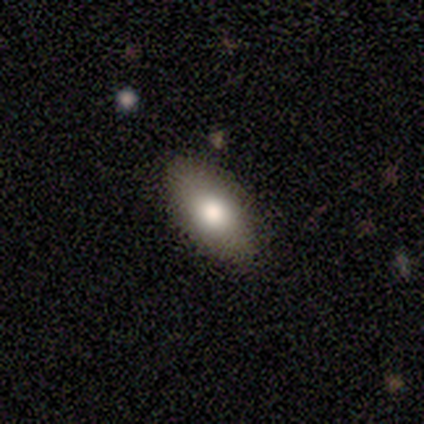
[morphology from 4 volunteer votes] Q: Smooth or featured?
A: smooth (75%); runner-up: featured or disk (25%)
Q: How rounded?
A: in between (100%)
Q: Merging?
A: minor disturbance (50%); runner-up: none (25%)